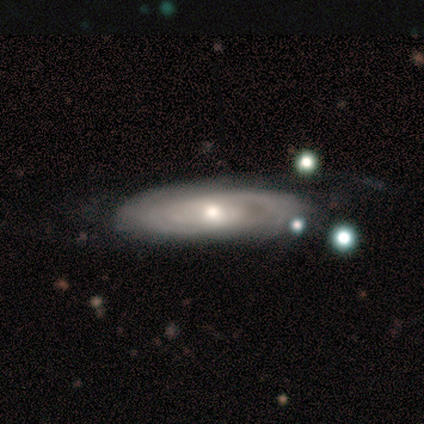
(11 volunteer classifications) Smooth or featured: featured or disk — 91% (smooth — 9%)
Edge-on disk: no — 90% (yes — 10%)
Bar: no — 67% (weak — 33%)
Spiral arms: yes — 78% (no — 22%)
Spiral winding: tight — 71% (medium — 14%)
Spiral arm count: 2 — 57% (can't tell — 43%)
Bulge size: moderate — 78% (small — 22%)
Merging: none — 64% (minor disturbance — 27%)